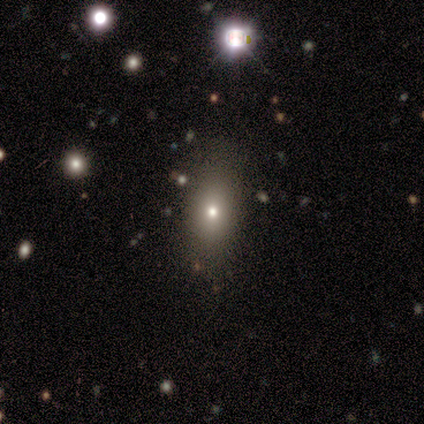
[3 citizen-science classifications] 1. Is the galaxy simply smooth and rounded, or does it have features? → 67% smooth, 33% featured or disk, 0% star or artifact.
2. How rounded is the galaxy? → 50% round (tied), 50% cigar-shaped (tied), 0% in between.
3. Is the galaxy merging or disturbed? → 67% minor disturbance, 33% none, 0% major disturbance, 0% merger.